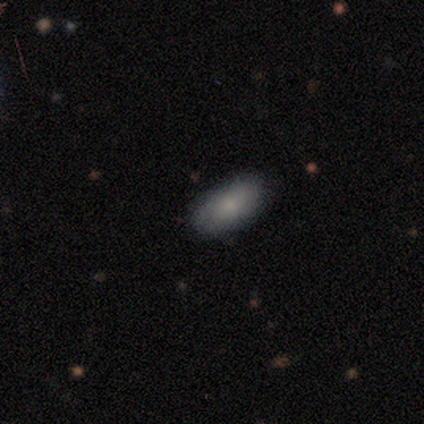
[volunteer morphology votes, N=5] This appears to be a smooth galaxy with no disk features (60%) that is in between round and cigar-shaped (67%). Merging: none (80%).